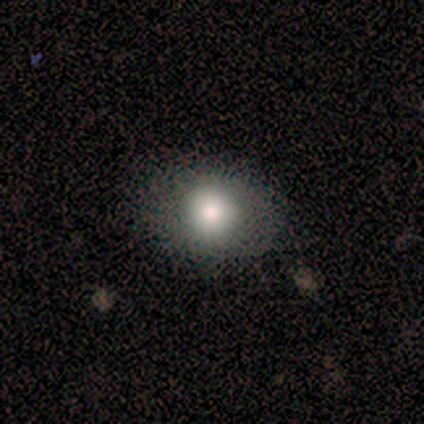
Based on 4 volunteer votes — smooth 100%, featured or disk 0%, star or artifact 0%. Down the decision tree: how rounded — round (50%, tied with in between); merging — none (100%).